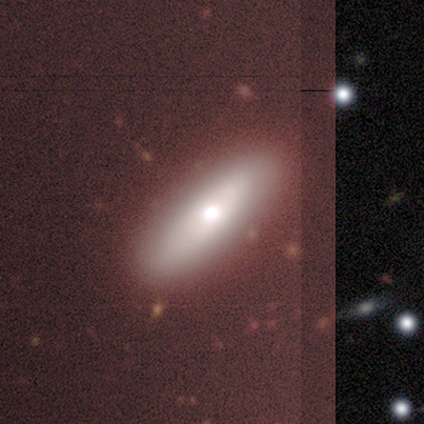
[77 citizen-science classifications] A smooth galaxy with no disk features (56%) that is in between round and cigar-shaped (49%, tied with cigar-shaped). Merging: none (60%).